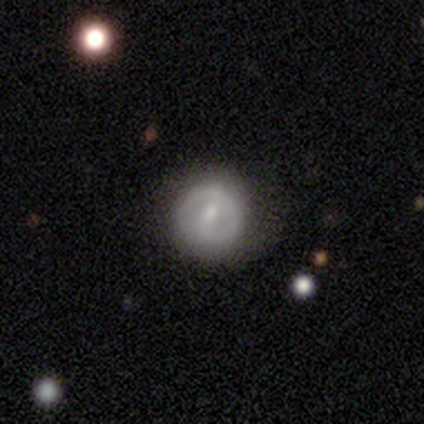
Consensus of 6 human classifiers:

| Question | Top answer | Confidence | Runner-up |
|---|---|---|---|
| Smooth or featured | smooth | 50% | tied: featured or disk (50%) |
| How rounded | round | 100% | — |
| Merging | none | 67% | minor disturbance (17%) |